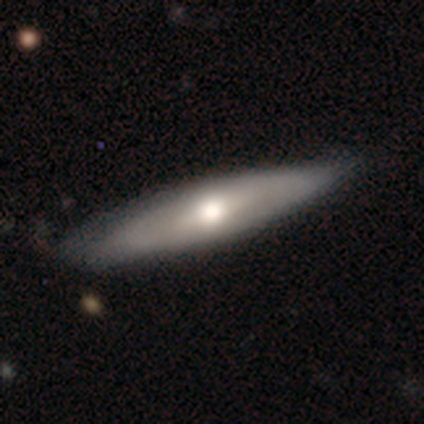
smooth-or-featured: featured or disk: 100% | smooth: 0% | star or artifact: 0%
  disk-edge-on: yes: 60% | no: 40%
    edge-on-bulge: rounded: 100% | boxy: 0% | none: 0%
  merging: none: 80% | minor disturbance: 20% | major disturbance: 0% | merger: 0%